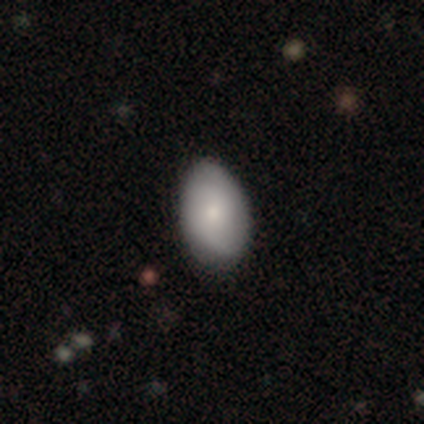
Smooth or featured: smooth — 71% (featured or disk — 26%)
How rounded: in between — 93% (round — 5%)
Merging: none — 35% (minor disturbance — 15%)